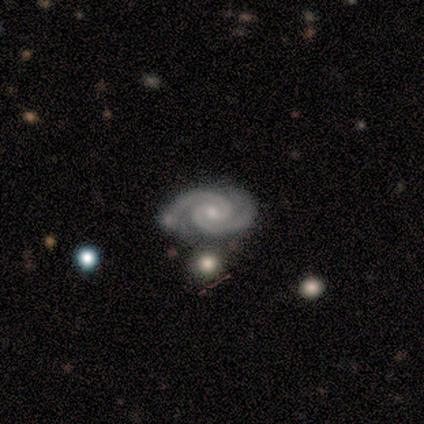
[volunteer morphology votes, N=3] featured or disk 100%, smooth 0%, star or artifact 0%. Down the decision tree: edge-on disk — no (67%); bar — weak (50%, tied with no); spiral arms — yes (100%); spiral arm count — 2 (50%, tied with 3); spiral winding — tight (50%, tied with medium); bulge size — moderate (50%, tied with small); merging — none (100%).